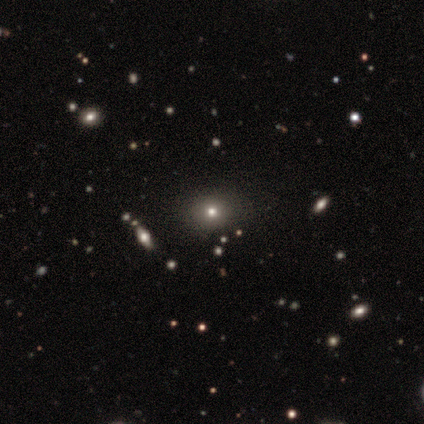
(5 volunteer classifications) smooth_or_featured: smooth (p=1.00)
how_rounded: round (p=0.80) [alt: in between p=0.20]
merging: none (p=1.00)